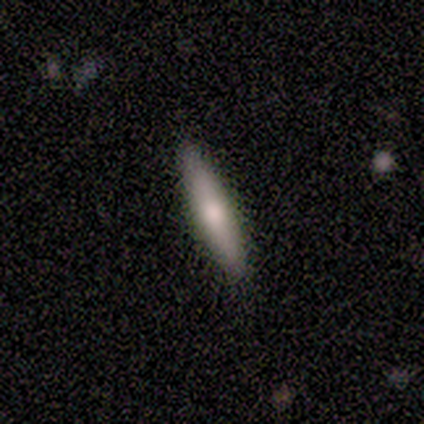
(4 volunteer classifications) This appears to be a featured or disk galaxy (50%) viewed edge-on (100%) with a rounded central bulge (100%). Merging: none (67%).